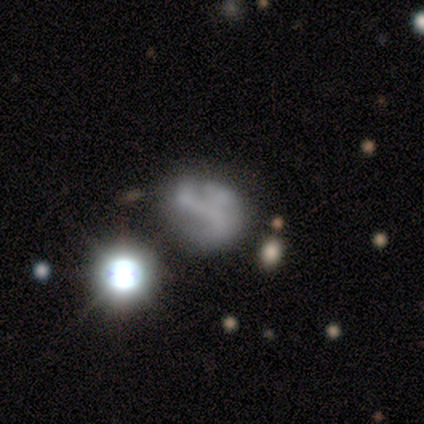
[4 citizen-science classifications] Smooth or featured?
  - smooth: 50% *
  - featured or disk: 25%
  - star or artifact: 25%
How rounded?
  - round: 50% * (tied)
  - in between: 50% * (tied)
  - cigar-shaped: 0%
Merging?
  - none: 33% * (tied)
  - minor disturbance: 33% * (tied)
  - major disturbance: 33% * (tied)
  - merger: 0%